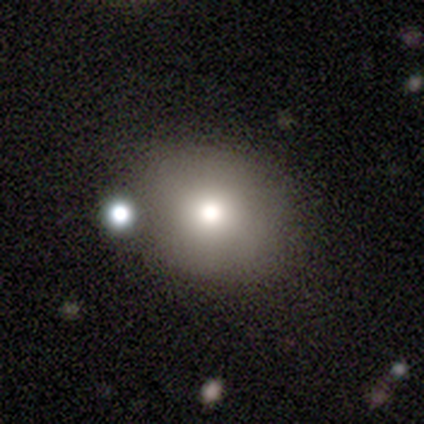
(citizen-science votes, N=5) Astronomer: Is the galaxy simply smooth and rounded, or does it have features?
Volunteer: smooth — 80%.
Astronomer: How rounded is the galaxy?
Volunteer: round — 100%.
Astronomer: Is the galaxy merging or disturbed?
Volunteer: none — 100%.